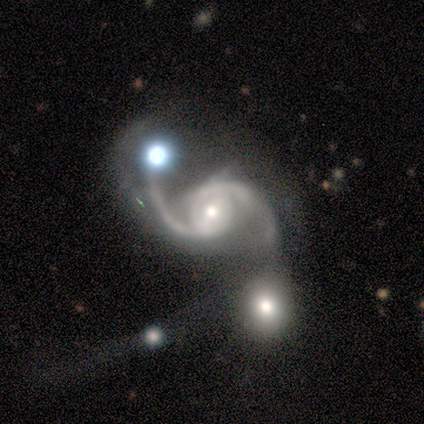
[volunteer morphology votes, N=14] This is clearly a featured or disk galaxy (100%). It is clearly not viewed edge-on (100%). Bar: marginally weak (43%). Spiral arm pattern: clearly yes (100%). Spiral arm count: clearly 2 (93%). Spiral winding: marginally medium (43%, tied with loose). Central bulge: possibly moderate (57%). Merging: marginally major disturbance (36%).